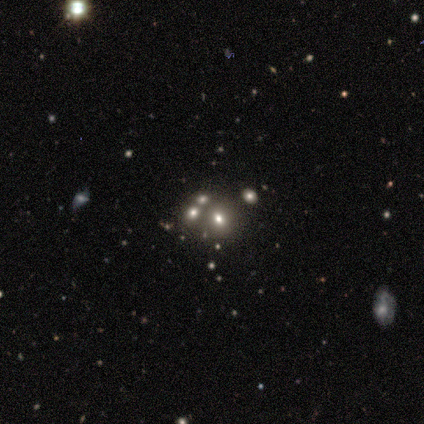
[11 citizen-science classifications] Smooth or featured? 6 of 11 (55%) said smooth. How rounded? 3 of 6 (50%, tied with in between) said round. Merging? 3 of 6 (50%) said none.